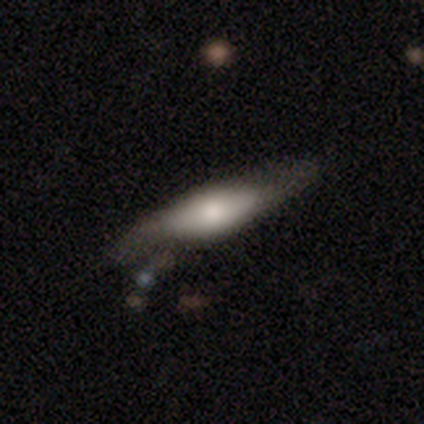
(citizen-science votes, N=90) smooth 51%, featured or disk 43%, star or artifact 6%. Down the decision tree: how rounded — cigar-shaped (61%); merging — none (69%).